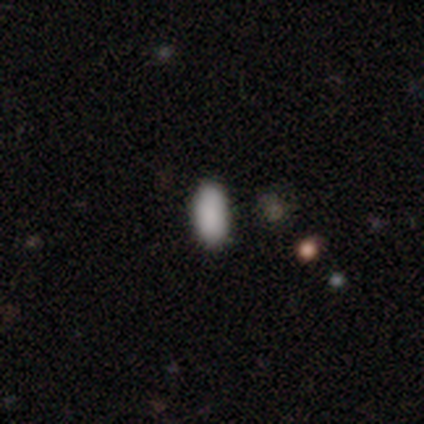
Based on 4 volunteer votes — Morphology: type=smooth (100%); roundness=in between (100%); merging=none (100%).